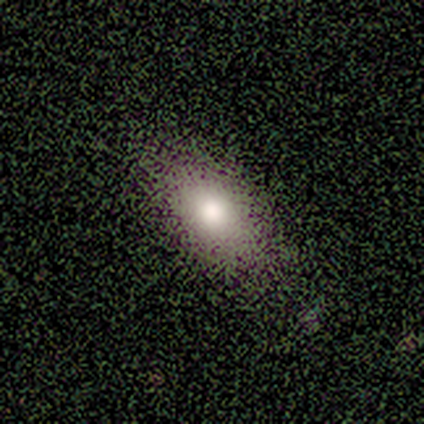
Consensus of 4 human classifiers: Overall: smooth (75%). How rounded: round (33%, tied with in between and cigar-shaped). Merging: none (100%).